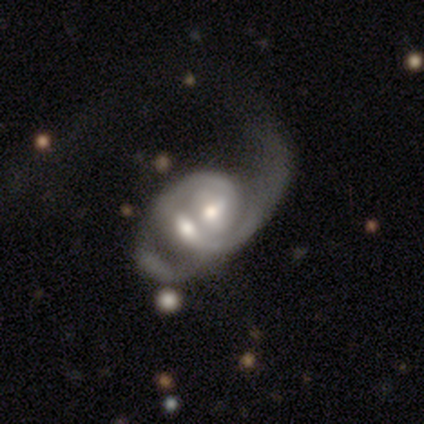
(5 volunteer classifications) Smooth or featured?
  - featured or disk: 80% *
  - star or artifact: 20%
  - smooth: 0%
Edge-on disk?
  - no: 100% *
  - yes: 0%
Bar?
  - no: 75% *
  - strong: 25%
  - weak: 0%
Spiral arms?
  - yes: 75% *
  - no: 25%
Spiral winding?
  - tight: 33% * (tied)
  - medium: 33% * (tied)
  - loose: 33% * (tied)
Spiral arm count?
  - 2: 100% *
  - 1: 0%
  - 3: 0%
  - 4: 0%
  - more than 4: 0%
  - can't tell: 0%
Bulge size?
  - moderate: 75% *
  - small: 25%
  - dominant: 0%
  - large: 0%
  - none: 0%
Merging?
  - merger: 75% *
  - none: 25%
  - minor disturbance: 0%
  - major disturbance: 0%